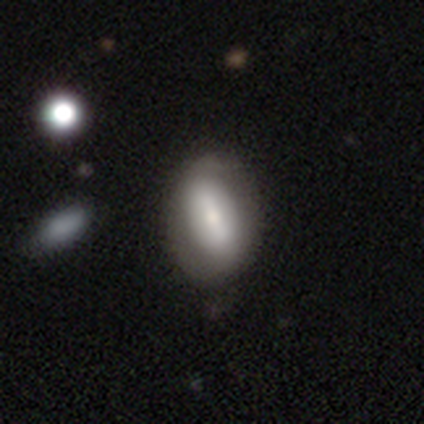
Volunteers were most divided on "smooth or featured" (2-way tie): smooth: 50%, featured or disk: 50%, star or artifact: 0%. More confident: how rounded — in between (100%); merging — none (100%).